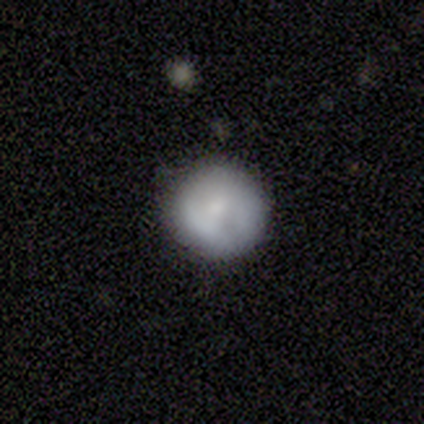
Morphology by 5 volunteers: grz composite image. It shows a smooth galaxy with no disk features (60%) that is round (67%). Merging: none (60%).